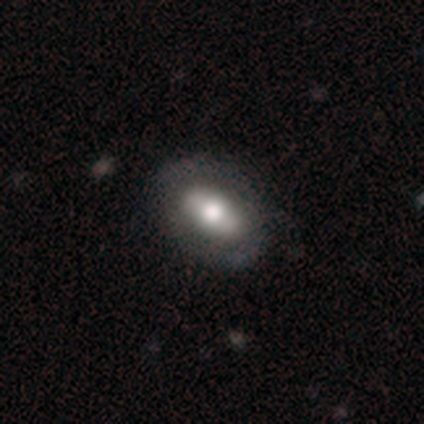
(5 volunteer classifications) This is likely a featured or disk galaxy (60%). It is likely not viewed edge-on (67%). Bar: possibly strong (50%, tied with no). Spiral arm pattern: possibly yes (50%, tied with no). Spiral arm count: clearly 2 (100%). Spiral winding: clearly medium (100%). Central bulge: possibly dominant (50%, tied with moderate). Merging: clearly none (100%).